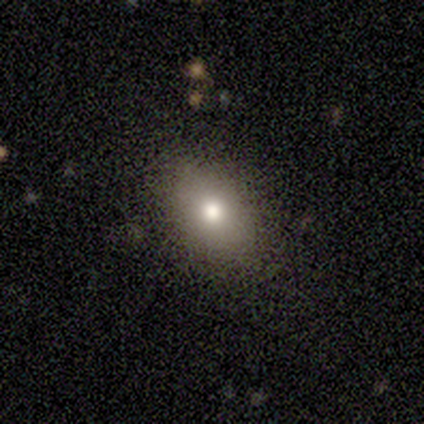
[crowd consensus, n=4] smooth-or-featured: smooth: 75% | star or artifact: 25% | featured or disk: 0%
  how-rounded: in between: 100% | round: 0% | cigar-shaped: 0%
  merging: none: 100% | minor disturbance: 0% | major disturbance: 0% | merger: 0%